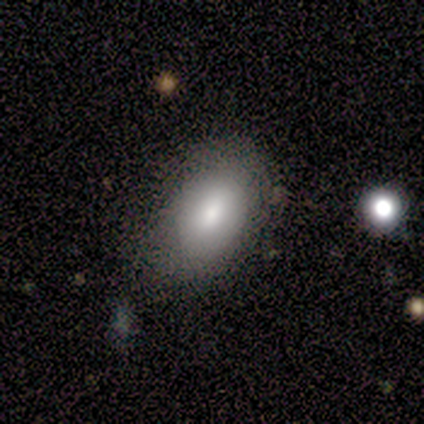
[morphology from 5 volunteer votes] smooth_or_featured: smooth (p=1.00)
how_rounded: in between (p=1.00)
merging: none (p=1.00)